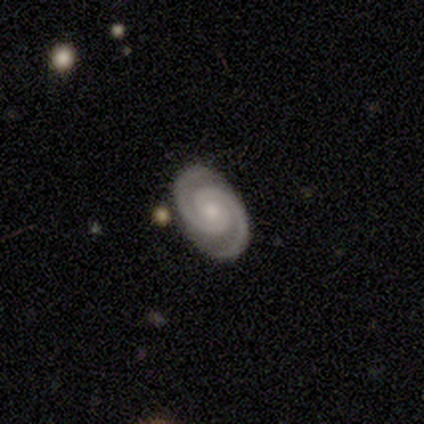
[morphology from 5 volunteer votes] This appears to be a featured or disk galaxy (100%) with no bar (80%), 2 (100%) tight (80%) spiral arms (100%) and a small central bulge (60%). Merging: none (100%).